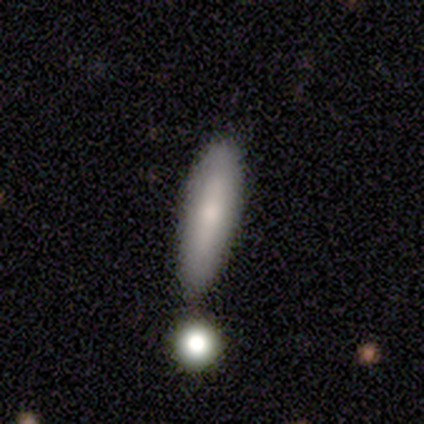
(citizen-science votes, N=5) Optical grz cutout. It shows a smooth galaxy with no disk features (60%) that is cigar-shaped (100%). Merging: none (80%).